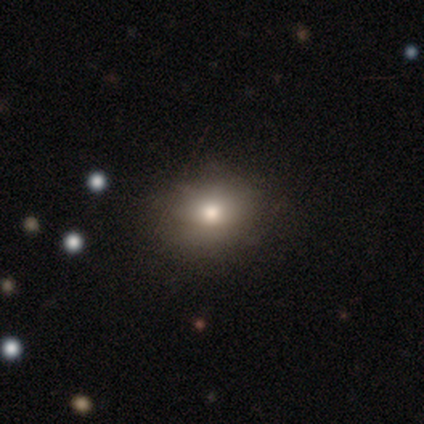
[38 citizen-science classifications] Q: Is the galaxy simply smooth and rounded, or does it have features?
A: smooth — 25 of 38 (66%).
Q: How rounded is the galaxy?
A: round — 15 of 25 (60%).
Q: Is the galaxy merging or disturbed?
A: none — 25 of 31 (81%).